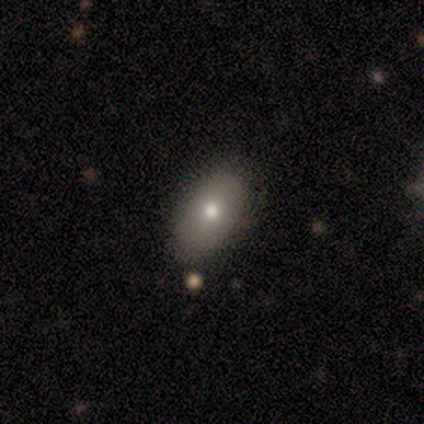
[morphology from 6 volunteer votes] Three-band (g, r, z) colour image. It shows a smooth galaxy with no disk features (67%) that is in between round and cigar-shaped (75%). Merging: none (100%).